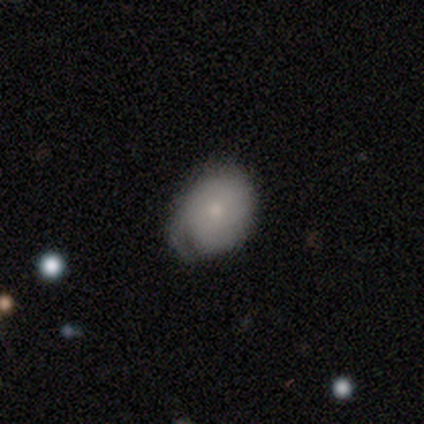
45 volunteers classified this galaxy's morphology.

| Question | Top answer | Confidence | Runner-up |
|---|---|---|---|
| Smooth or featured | smooth | 69% | featured or disk (31%) |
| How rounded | in between | 68% | round (32%) |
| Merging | none | 53% | minor disturbance (36%) |